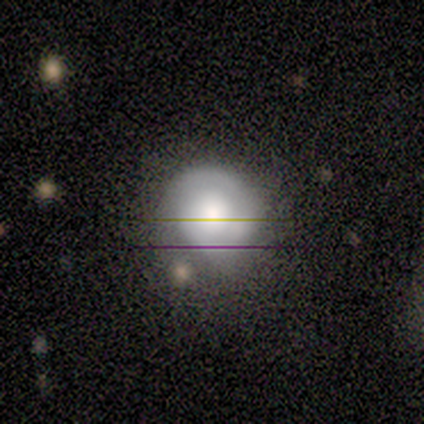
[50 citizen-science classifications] A featured or disk galaxy (64%) with no bar (77%), 2 (60%) tight (48%) spiral arms (81%) and a large central bulge (58%).

Vote fractions:
- Smooth or featured? featured or disk: 64% / smooth: 34% / star or artifact: 2%
- Edge-on disk? no: 97% / yes: 3%
- Bar? no: 77% / weak: 23% / strong: 0%
- Spiral arms? yes: 81% / no: 19%
- Spiral winding? tight: 48% / medium: 28% / loose: 24%
- Spiral arm count? 2: 60% / can't tell: 28% / 1: 8% / 3: 4% / 4: 0% / more than 4: 0%
- Bulge size? large: 58% / moderate: 32% / small: 6% / dominant: 3% / none: 0%
- Merging? none: 59% / minor disturbance: 29% / major disturbance: 10% / merger: 2%